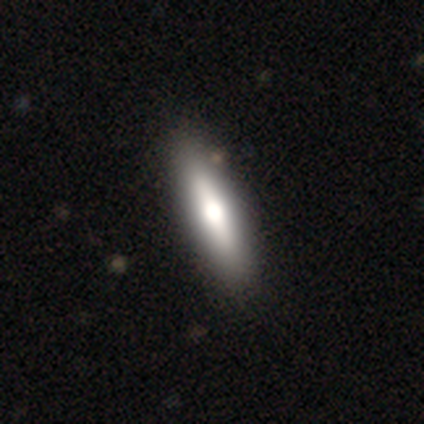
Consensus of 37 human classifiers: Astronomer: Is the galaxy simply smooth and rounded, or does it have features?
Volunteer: smooth — 62%.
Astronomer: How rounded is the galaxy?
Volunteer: cigar-shaped — 74%.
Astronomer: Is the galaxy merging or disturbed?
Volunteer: none — 61%.